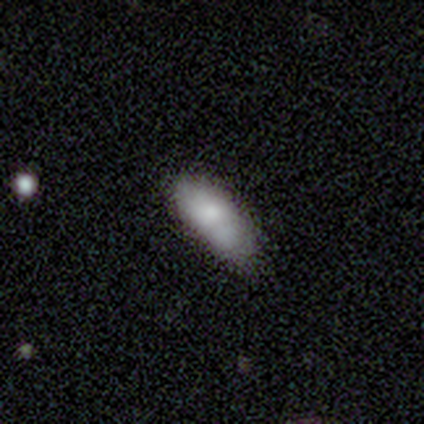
smooth-or-featured: smooth: 83% | featured or disk: 17% | star or artifact: 0%
  how-rounded: in between: 88% | cigar-shaped: 12% | round: 0%
  merging: none: 59% | minor disturbance: 29% | merger: 10% | major disturbance: 2%